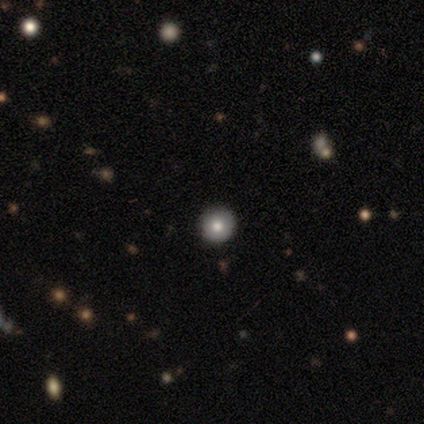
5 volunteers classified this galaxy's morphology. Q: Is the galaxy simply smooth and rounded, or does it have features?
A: smooth — 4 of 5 (80%).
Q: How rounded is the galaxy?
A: round — 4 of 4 (100%).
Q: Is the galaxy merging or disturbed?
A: none — 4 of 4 (100%).